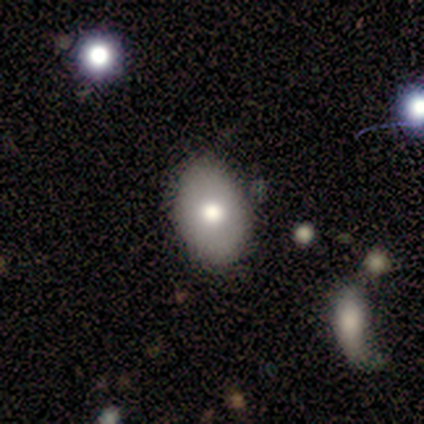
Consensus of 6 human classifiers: A smooth galaxy with no disk features (50%, tied with featured or disk) that is in between round and cigar-shaped (100%).

Vote fractions:
- Smooth or featured? smooth: 50% (tied) / featured or disk: 50% (tied) / star or artifact: 0%
- How rounded? in between: 100% / round: 0% / cigar-shaped: 0%
- Merging? none: 83% / merger: 17% / minor disturbance: 0% / major disturbance: 0%